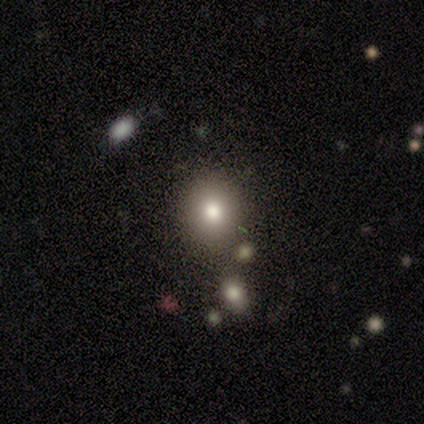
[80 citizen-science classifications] A smooth galaxy with no disk features (74%) that is round (76%).

Vote fractions:
- Smooth or featured? smooth: 74% / star or artifact: 14% / featured or disk: 12%
- How rounded? round: 76% / in between: 24% / cigar-shaped: 0%
- Merging? none: 41% / merger: 9% / minor disturbance: 7% / major disturbance: 3%